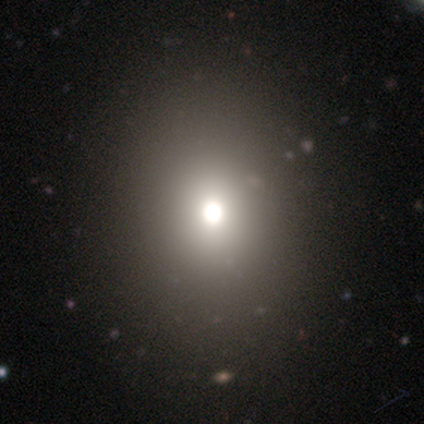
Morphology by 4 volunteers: A smooth galaxy with no disk features (75%) that is round (67%).

Vote fractions:
- Smooth or featured? smooth: 75% / star or artifact: 25% / featured or disk: 0%
- How rounded? round: 67% / in between: 33% / cigar-shaped: 0%
- Merging? none: 67% / minor disturbance: 33% / major disturbance: 0% / merger: 0%